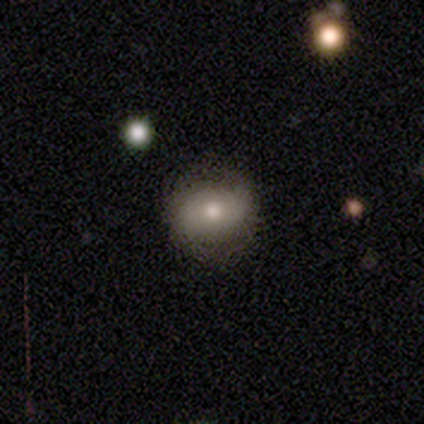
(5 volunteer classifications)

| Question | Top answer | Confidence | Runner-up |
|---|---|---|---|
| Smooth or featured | smooth | 60% | featured or disk (40%) |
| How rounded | in between | 67% | round (33%) |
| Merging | major disturbance | 60% | none (20%) |